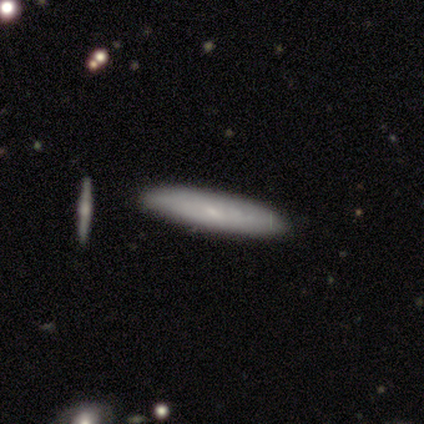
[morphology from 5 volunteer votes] Smooth or featured? smooth (80%)
How rounded? cigar-shaped (100%)
Merging? none (100%)